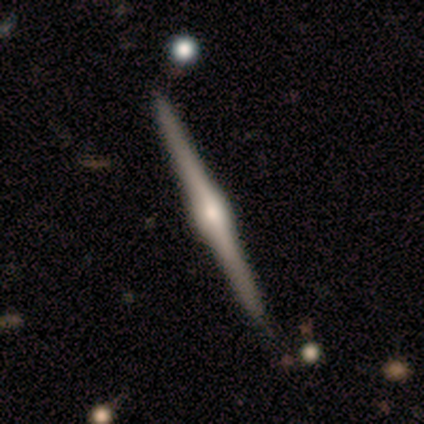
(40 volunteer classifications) Morphology: type=featured or disk (98%); edge-on=yes (100%); edge-on bulge=rounded (87%); merging=none (90%).